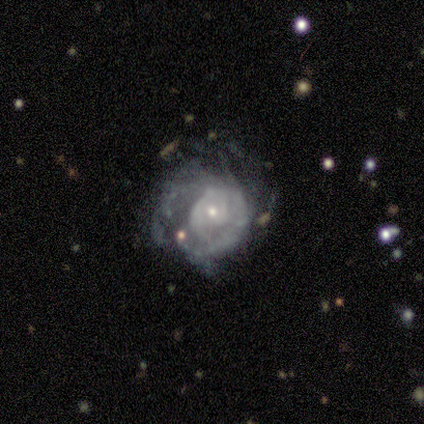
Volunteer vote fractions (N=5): A featured or disk galaxy (100%) with no bar (100%), 1 (33%, tied with more than 4 and can't tell) tight (67%) spiral arms (60%) and a small central bulge (80%). Merging: none (40%, tied with major disturbance).